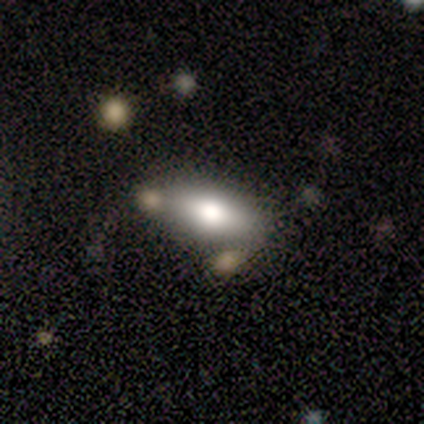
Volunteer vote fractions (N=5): A smooth galaxy with no disk features (40%, tied with star or artifact) that is in between round and cigar-shaped (100%).

Vote fractions:
- Smooth or featured? smooth: 40% (tied) / star or artifact: 40% (tied) / featured or disk: 20%
- How rounded? in between: 100% / round: 0% / cigar-shaped: 0%
- Merging? none: 67% / major disturbance: 33% / minor disturbance: 0% / merger: 0%